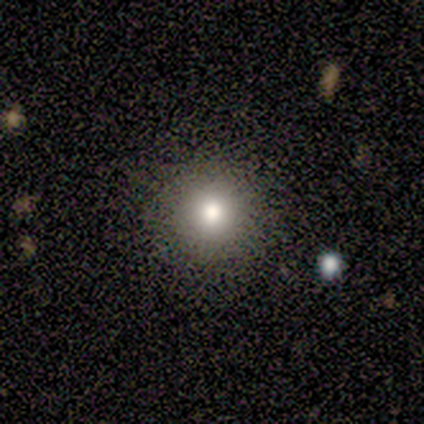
Smooth or featured? 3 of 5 (60%) said smooth. How rounded? 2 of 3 (67%) said round. Merging? 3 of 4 (75%) said none.